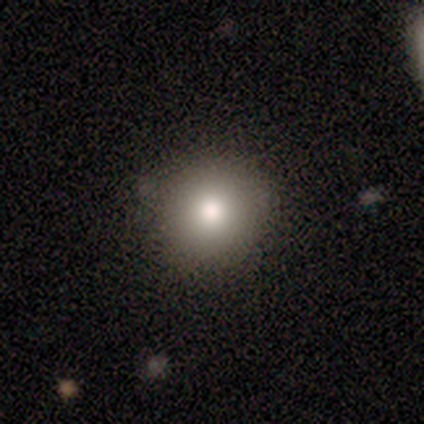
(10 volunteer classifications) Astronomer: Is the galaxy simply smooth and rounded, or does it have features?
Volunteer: smooth — 60%.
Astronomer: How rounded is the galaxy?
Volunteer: round — 100%.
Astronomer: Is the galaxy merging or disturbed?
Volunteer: none — 100%.